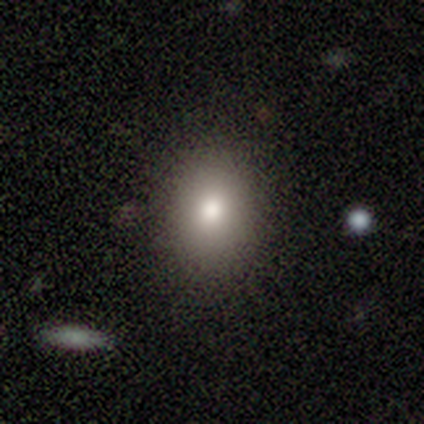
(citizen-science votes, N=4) This is likely a smooth galaxy (75%). How rounded: likely in between (67%). Merging: clearly none (100%).